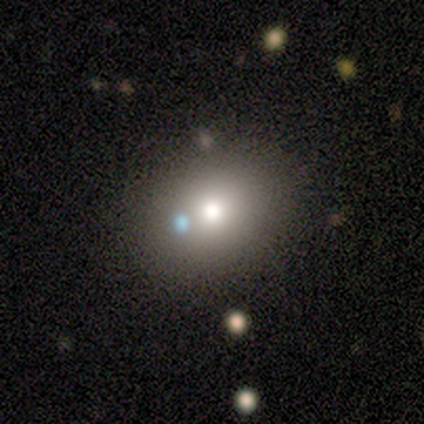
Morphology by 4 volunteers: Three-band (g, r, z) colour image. It shows a smooth galaxy with no disk features (100%) that is round (75%). Merging: none (75%).